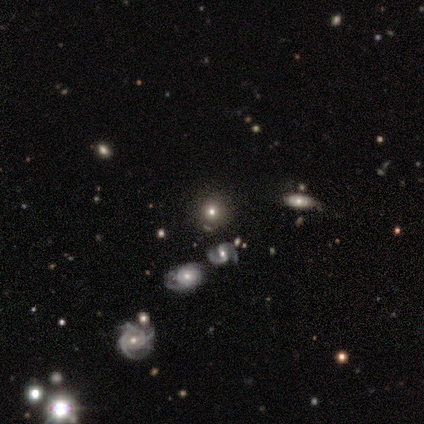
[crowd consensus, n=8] Smooth or featured: smooth — 75% (featured or disk — 12%)
How rounded: round — 83% (in between — 17%)
Merging: none — 86% (minor disturbance — 14%)